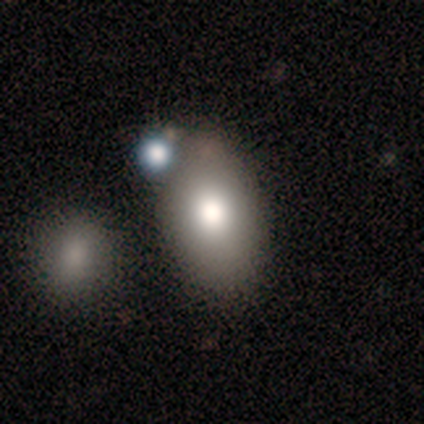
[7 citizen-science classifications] Overall: smooth (71%). How rounded: in between (80%). Merging: none (67%).